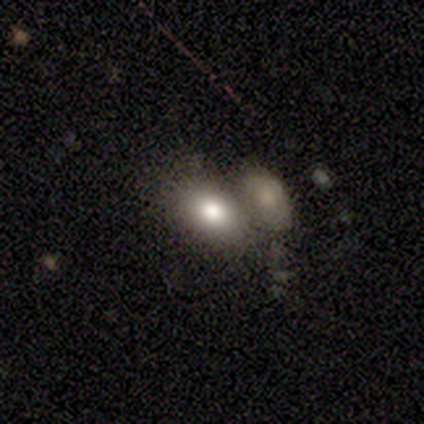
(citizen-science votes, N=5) A smooth galaxy with no disk features (80%) that is in between round and cigar-shaped (100%). Merging: merger (80%).